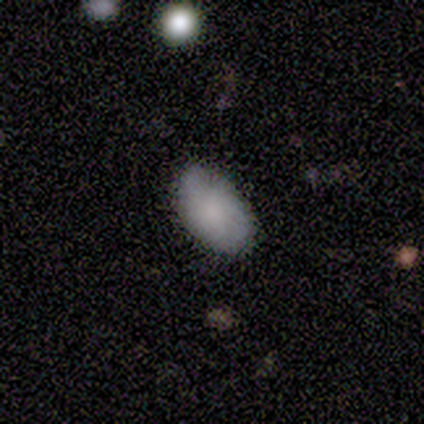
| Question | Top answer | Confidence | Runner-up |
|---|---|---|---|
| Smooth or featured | smooth | 100% | — |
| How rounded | in between | 80% | round (20%) |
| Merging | none | 80% | major disturbance (20%) |